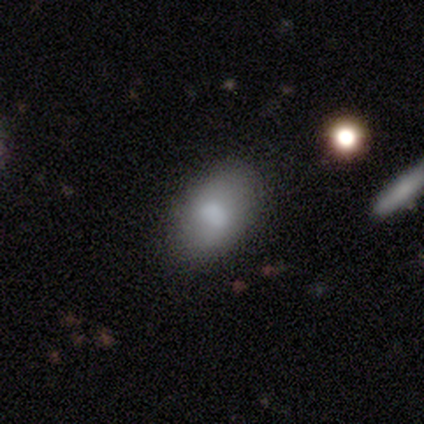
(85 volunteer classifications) A smooth galaxy with no disk features (78%) that is in between round and cigar-shaped (89%). Merging: none (78%).